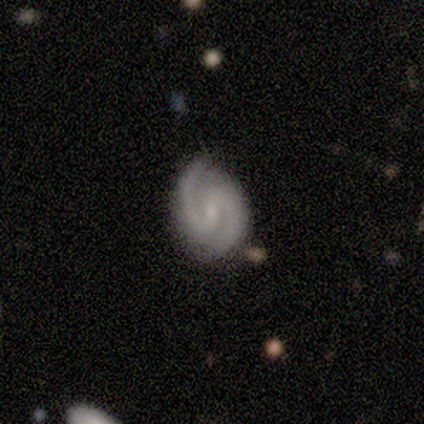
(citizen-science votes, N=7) This is likely a featured or disk galaxy (71%). It is clearly not viewed edge-on (100%). Bar: marginally weak (40%, tied with no). Spiral arm pattern: clearly yes (100%). Spiral arm count: clearly 2 (100%). Spiral winding: clearly medium (80%). Central bulge: clearly small (80%). Merging: clearly none (80%).